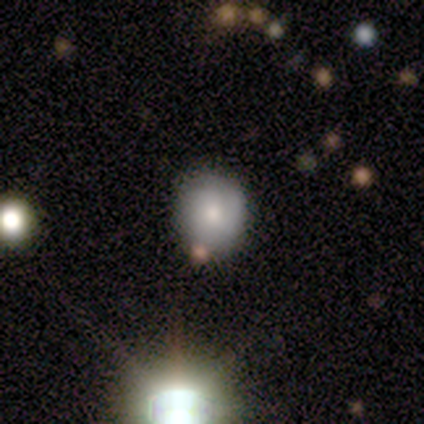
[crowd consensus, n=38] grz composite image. It shows a smooth galaxy with no disk features (76%) that is round (93%). Merging: none (69%).